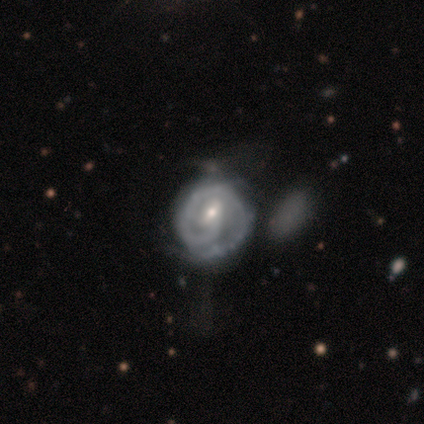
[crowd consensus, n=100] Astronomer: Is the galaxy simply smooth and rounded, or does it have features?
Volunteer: featured or disk — 85%.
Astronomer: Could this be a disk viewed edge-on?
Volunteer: no — 99%.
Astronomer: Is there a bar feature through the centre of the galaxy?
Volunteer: weak — 60%.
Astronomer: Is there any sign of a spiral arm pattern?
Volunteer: yes — 96%.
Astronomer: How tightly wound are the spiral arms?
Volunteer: tight — 68%.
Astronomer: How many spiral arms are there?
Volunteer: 1 — 63%.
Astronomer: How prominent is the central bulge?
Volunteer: small — 49% (runner-up: moderate, 48%).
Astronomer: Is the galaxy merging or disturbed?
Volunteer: none — 30% (runner-up: minor disturbance, 23%).